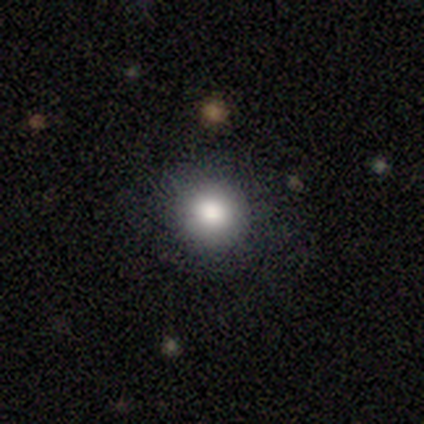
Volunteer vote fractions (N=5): smooth_or_featured: smooth (p=1.00)
how_rounded: round (p=1.00)
merging: none (p=1.00)